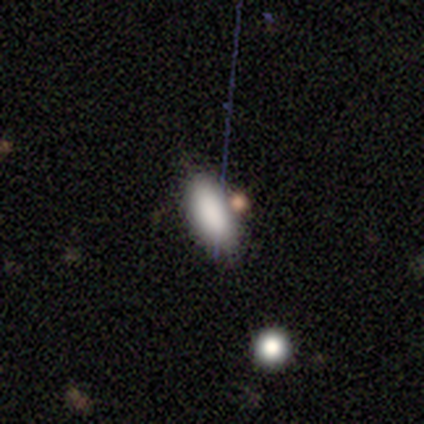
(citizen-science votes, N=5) A smooth galaxy with no disk features (100%) that is in between round and cigar-shaped (100%). Merging: none (60%).